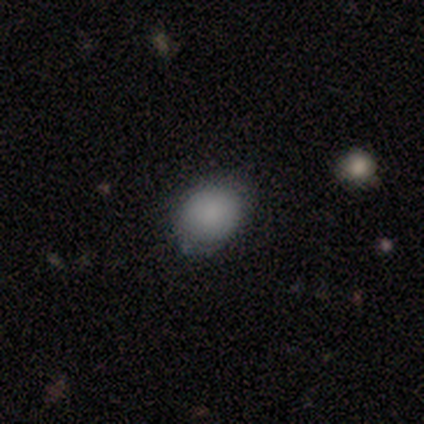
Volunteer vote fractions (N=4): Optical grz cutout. It shows a smooth galaxy with no disk features (100%) that is round (50%, tied with in between). Merging: none (75%).